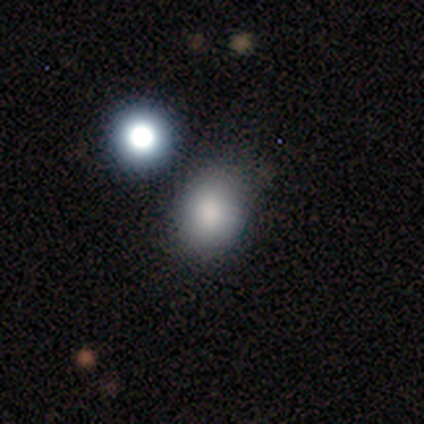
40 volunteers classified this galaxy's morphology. Volunteers were most divided on "how rounded" (2-way tie): round: 50%, in between: 50%, cigar-shaped: 0%. More confident: smooth or featured — smooth (85%); merging — none (62%).